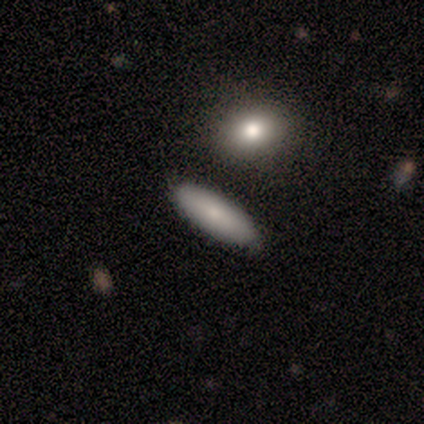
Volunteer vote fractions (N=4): This is likely a smooth galaxy (75%). How rounded: likely in between (67%). Merging: clearly none (100%).